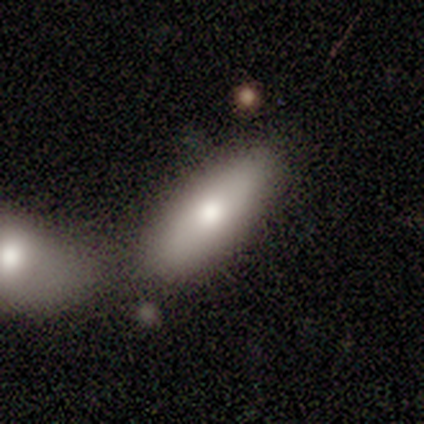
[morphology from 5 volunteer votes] smooth-or-featured: smooth: 60% | star or artifact: 40% | featured or disk: 0%
  how-rounded: in between: 67% | cigar-shaped: 33% | round: 0%
  merging: none: 67% | major disturbance: 33% | minor disturbance: 0% | merger: 0%